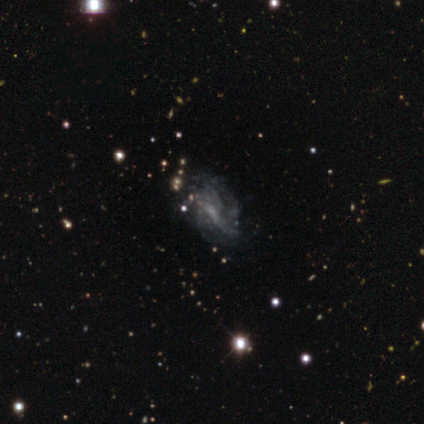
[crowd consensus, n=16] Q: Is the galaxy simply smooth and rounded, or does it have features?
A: featured or disk — 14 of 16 (88%).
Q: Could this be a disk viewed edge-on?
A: no — 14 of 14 (100%).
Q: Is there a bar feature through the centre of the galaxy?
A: weak — 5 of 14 (36%, tied with no).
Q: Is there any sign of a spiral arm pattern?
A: yes — 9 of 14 (64%).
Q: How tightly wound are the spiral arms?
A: medium — 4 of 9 (44%).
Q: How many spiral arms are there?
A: can't tell — 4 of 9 (44%).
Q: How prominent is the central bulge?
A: small — 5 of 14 (36%, tied with none).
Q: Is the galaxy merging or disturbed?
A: none — 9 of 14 (64%).